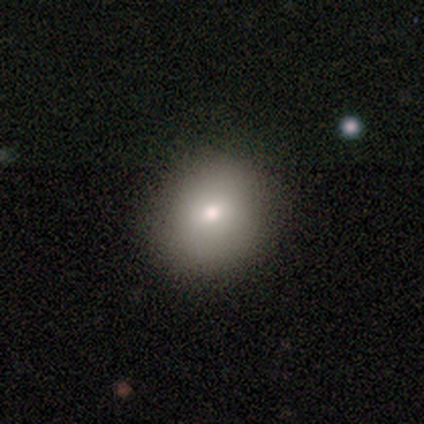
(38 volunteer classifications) smooth 84%, featured or disk 13%, star or artifact 3%. Down the decision tree: how rounded — round (75%); merging — none (62%).